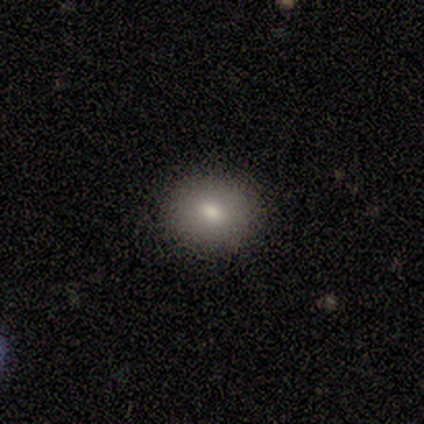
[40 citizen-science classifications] This is likely a smooth galaxy (75%). How rounded: likely round (60%). Merging: clearly none (92%).